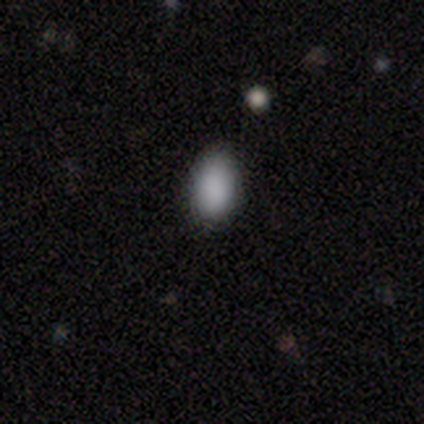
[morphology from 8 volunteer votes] This appears to be a smooth galaxy with no disk features (100%) that is in between round and cigar-shaped (62%). Merging: none (75%).